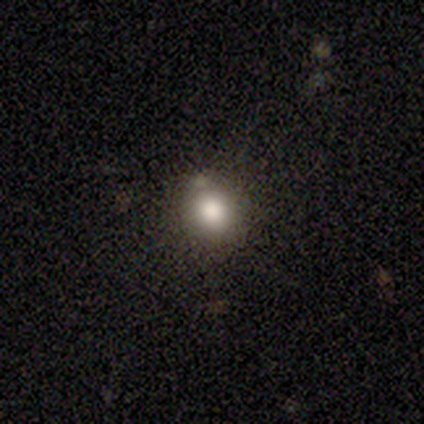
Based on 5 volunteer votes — smooth-or-featured: smooth: 80% | star or artifact: 20% | featured or disk: 0%
  how-rounded: round: 100% | in between: 0% | cigar-shaped: 0%
  merging: none: 100% | minor disturbance: 0% | major disturbance: 0% | merger: 0%